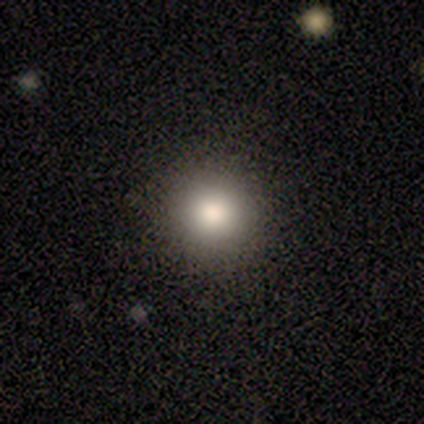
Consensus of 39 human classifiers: Smooth or featured? 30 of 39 (77%) said smooth. How rounded? 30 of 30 (100%) said round. Merging? 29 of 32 (91%) said none.